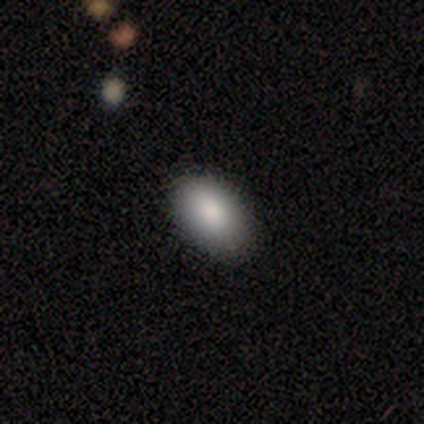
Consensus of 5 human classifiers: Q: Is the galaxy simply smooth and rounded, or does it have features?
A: smooth — 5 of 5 (100%).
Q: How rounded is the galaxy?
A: in between — 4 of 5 (80%).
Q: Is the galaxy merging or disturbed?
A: none — 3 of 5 (60%).